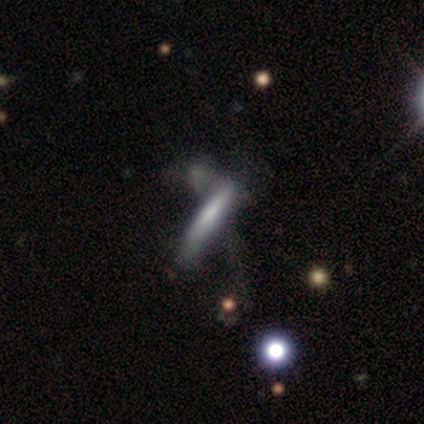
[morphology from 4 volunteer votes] This appears to be a smooth galaxy with no disk features (75%) that is cigar-shaped (100%). Merging: minor disturbance (50%, tied with merger).